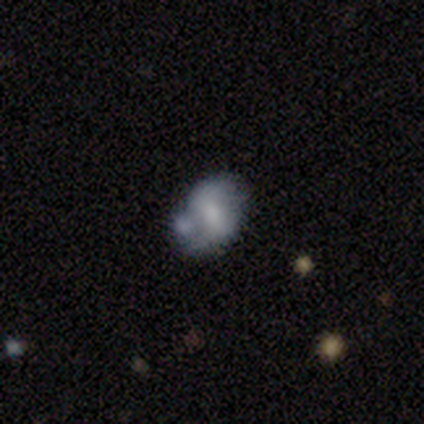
Smooth or featured?
  - featured or disk: 100% *
  - smooth: 0%
  - star or artifact: 0%
Edge-on disk?
  - no: 100% *
  - yes: 0%
Bar?
  - weak: 60% *
  - strong: 20%
  - no: 20%
Spiral arms?
  - yes: 60% *
  - no: 40%
Spiral winding?
  - loose: 100% *
  - tight: 0%
  - medium: 0%
Spiral arm count?
  - 2: 100% *
  - 1: 0%
  - 3: 0%
  - 4: 0%
  - more than 4: 0%
  - can't tell: 0%
Bulge size?
  - small: 40% *
  - large: 20%
  - moderate: 20%
  - none: 20%
  - dominant: 0%
Merging?
  - none: 60% *
  - minor disturbance: 20%
  - merger: 20%
  - major disturbance: 0%